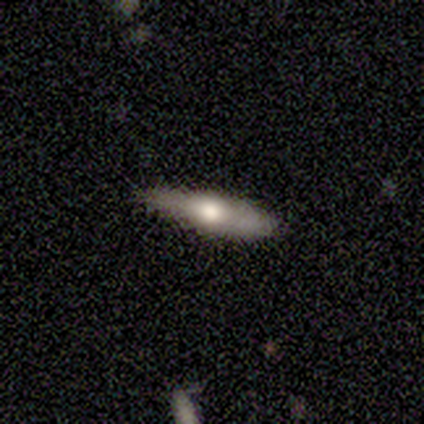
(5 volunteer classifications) Smooth or featured?
  - featured or disk: 60% *
  - smooth: 40%
  - star or artifact: 0%
Edge-on disk?
  - yes: 100% *
  - no: 0%
Edge-on bulge?
  - rounded: 67% *
  - boxy: 33%
  - none: 0%
Merging?
  - none: 80% *
  - minor disturbance: 20%
  - major disturbance: 0%
  - merger: 0%